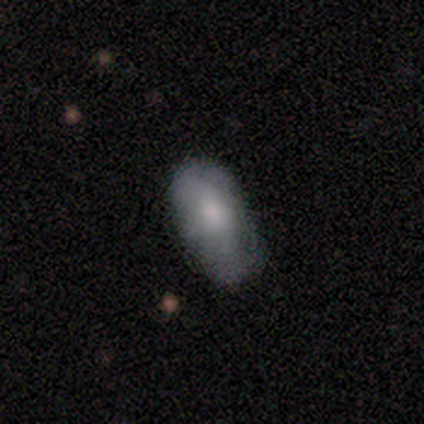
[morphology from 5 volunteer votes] This appears to be a smooth galaxy with no disk features (60%) that is in between round and cigar-shaped (100%). Merging: minor disturbance (80%).